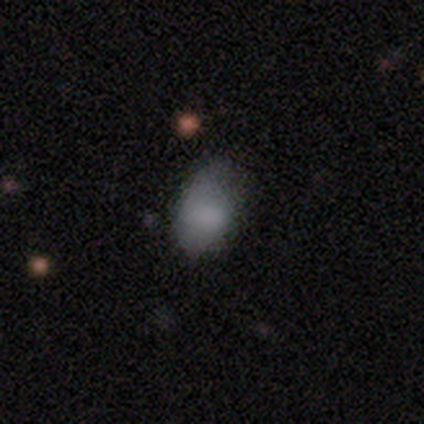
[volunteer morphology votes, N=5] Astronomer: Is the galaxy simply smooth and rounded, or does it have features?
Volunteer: smooth — 60%.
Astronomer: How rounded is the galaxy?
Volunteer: in between — 100%.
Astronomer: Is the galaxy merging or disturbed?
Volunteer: minor disturbance — 100%.